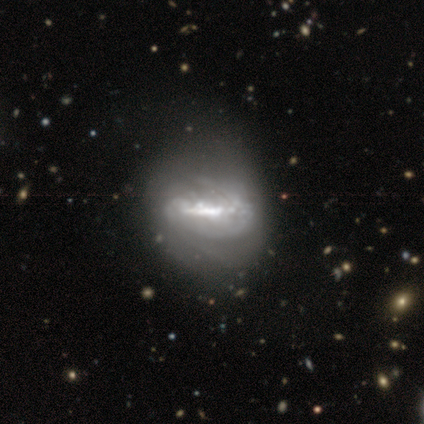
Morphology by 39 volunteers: Q: Smooth or featured?
A: featured or disk (87%); runner-up: smooth (13%)
Q: Edge-on disk?
A: no (91%); runner-up: yes (9%)
Q: Bar?
A: strong (71%); runner-up: weak (19%)
Q: Spiral arms?
A: yes (74%); runner-up: no (26%)
Q: Spiral winding?
A: tight (39%); runner-up: medium (30%)
Q: Spiral arm count?
A: 2 (48%); tied with: can't tell (48%)
Q: Bulge size?
A: none (32%); runner-up: moderate (26%)
Q: Merging?
A: none (38%); runner-up: major disturbance (36%)